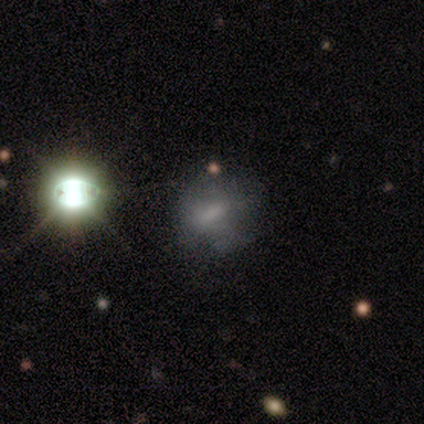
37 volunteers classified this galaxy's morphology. Smooth or featured?
  - smooth: 38% *
  - star or artifact: 35%
  - featured or disk: 27%
How rounded?
  - in between: 50% *
  - round: 43%
  - cigar-shaped: 7%
Merging?
  - none: 58% *
  - major disturbance: 21%
  - minor disturbance: 17%
  - merger: 4%